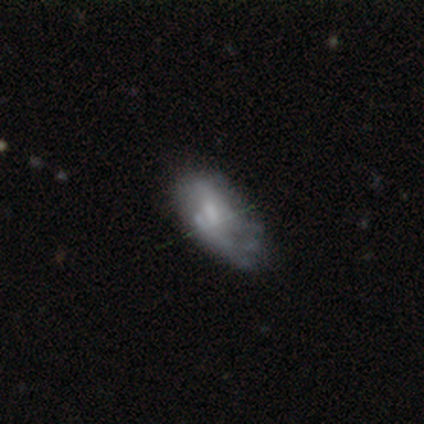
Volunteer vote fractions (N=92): Smooth or featured? 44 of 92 (48%) said featured or disk. Edge-on disk? 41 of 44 (93%) said no. Bar? 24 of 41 (59%) said no. Spiral arms? 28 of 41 (68%) said no. Bulge size? 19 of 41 (46%) said moderate. Merging? 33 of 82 (40%) said none.